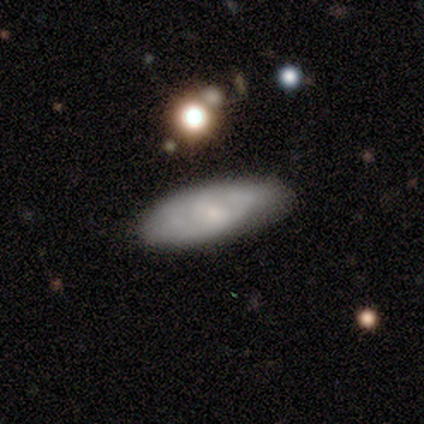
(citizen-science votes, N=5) Smooth or featured: smooth — 80% (featured or disk — 20%)
How rounded: in between — 50% (tied with cigar-shaped — 50%)
Merging: none — 80% (major disturbance — 20%)